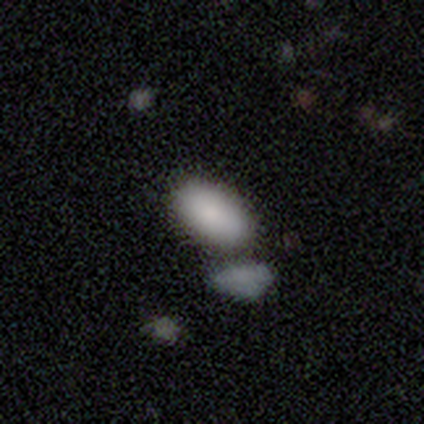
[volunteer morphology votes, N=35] Smooth or featured?
  - smooth: 89% *
  - featured or disk: 9%
  - star or artifact: 3%
How rounded?
  - in between: 94% *
  - round: 3%
  - cigar-shaped: 3%
Merging?
  - merger: 68% *
  - none: 0%
  - minor disturbance: 0%
  - major disturbance: 0%